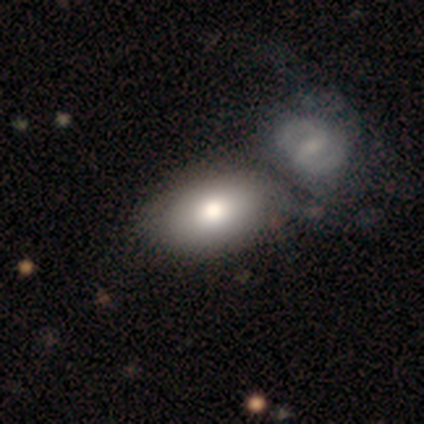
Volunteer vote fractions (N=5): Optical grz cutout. It shows a smooth galaxy with no disk features (80%) that is in between round and cigar-shaped (100%). Merging: none (40%).